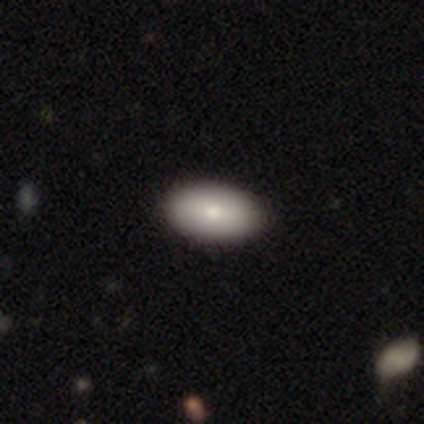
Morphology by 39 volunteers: smooth_or_featured: smooth (p=0.92) [alt: featured or disk p=0.05]
how_rounded: in between (p=0.92) [alt: cigar-shaped p=0.06]
merging: none (p=0.68) [alt: minor disturbance p=0.03]